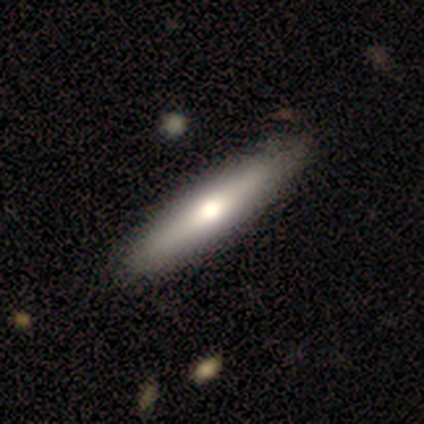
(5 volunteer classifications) Q: Smooth or featured?
A: featured or disk (60%); runner-up: smooth (40%)
Q: Edge-on disk?
A: yes (67%); runner-up: no (33%)
Q: Edge-on bulge?
A: rounded (100%)
Q: Merging?
A: none (100%)